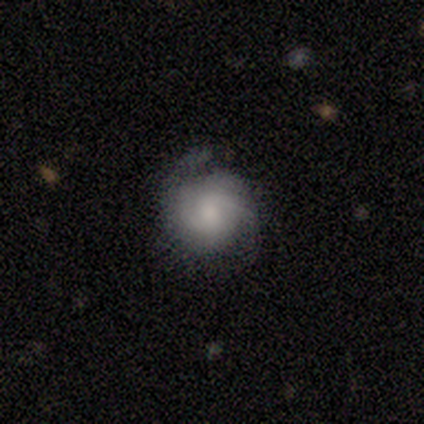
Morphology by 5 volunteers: Smooth or featured?
  - smooth: 60% *
  - featured or disk: 20%
  - star or artifact: 20%
How rounded?
  - round: 100% *
  - in between: 0%
  - cigar-shaped: 0%
Merging?
  - none: 50% * (tied)
  - minor disturbance: 50% * (tied)
  - major disturbance: 0%
  - merger: 0%